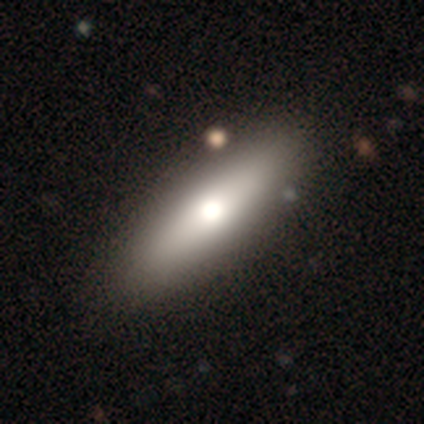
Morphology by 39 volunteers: A smooth galaxy with no disk features (74%) that is in between round and cigar-shaped (62%). Merging: none (65%).